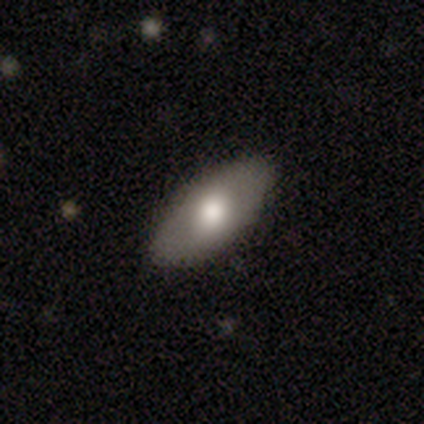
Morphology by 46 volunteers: This appears to be a smooth galaxy with no disk features (70%) that is in between round and cigar-shaped (97%). Merging: none (83%).